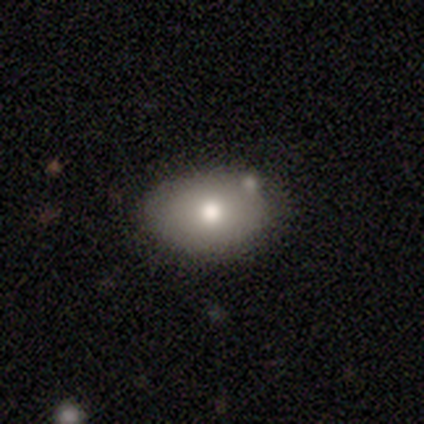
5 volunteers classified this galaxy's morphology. A smooth galaxy with no disk features (80%) that is in between round and cigar-shaped (100%).

Vote fractions:
- Smooth or featured? smooth: 80% / featured or disk: 20% / star or artifact: 0%
- How rounded? in between: 100% / round: 0% / cigar-shaped: 0%
- Merging? none: 100% / minor disturbance: 0% / major disturbance: 0% / merger: 0%